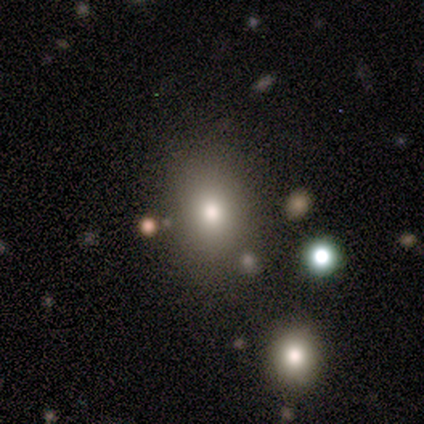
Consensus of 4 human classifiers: This appears to be a smooth galaxy with no disk features (50%, tied with star or artifact) that is in between round and cigar-shaped (100%). Merging: none (100%).